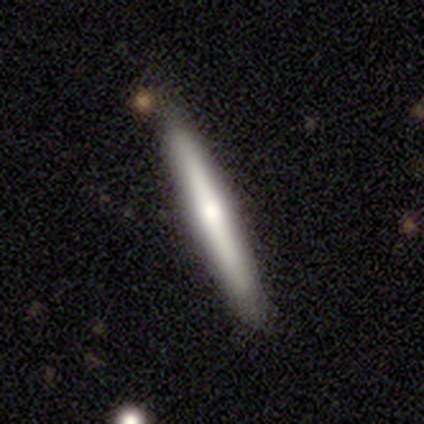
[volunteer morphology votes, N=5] Smooth or featured: featured or disk — 80% (smooth — 20%)
Edge-on disk: yes — 100%
Edge-on bulge: rounded — 75% (none — 25%)
Merging: none — 100%